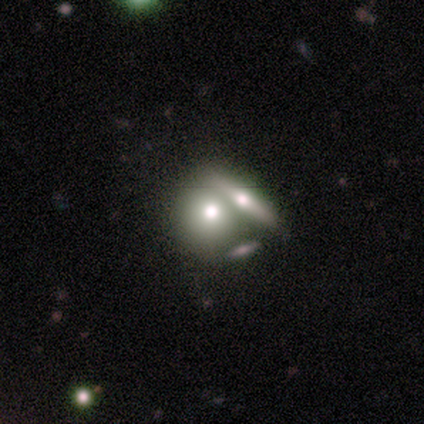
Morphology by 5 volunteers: Smooth or featured? 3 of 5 (60%) said smooth. How rounded? 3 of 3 (100%) said in between. Merging? 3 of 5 (60%) said merger.